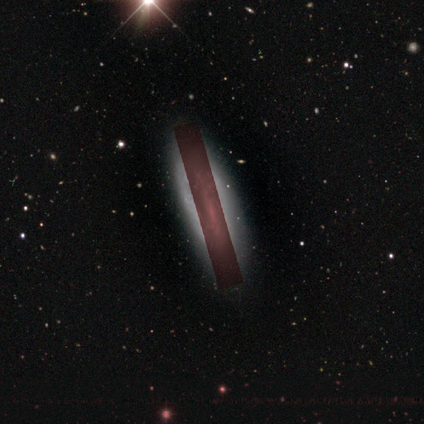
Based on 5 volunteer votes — Morphology: type=featured or disk (80%); edge-on=no (100%); bar=weak (50%); spiral arms=no (100%); bulge=small (50%, tied with none); merging=none (100%).